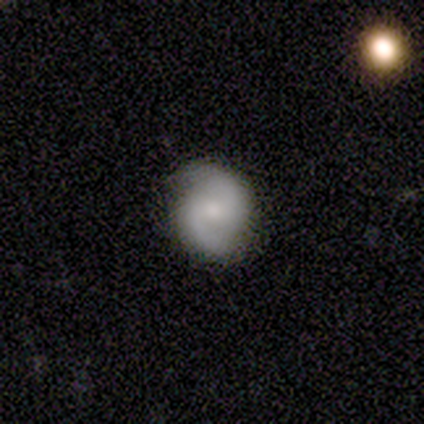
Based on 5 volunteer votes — This is clearly a featured or disk galaxy (80%). It is clearly not viewed edge-on (100%). Bar: possibly no (50%). Spiral arm pattern: likely yes (75%). Spiral arm count: clearly 2 (100%). Spiral winding: likely medium (67%). Central bulge: likely small (75%). Merging: clearly none (80%).